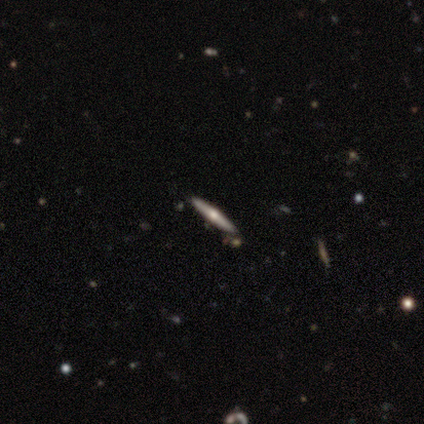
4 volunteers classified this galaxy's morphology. This is possibly a featured or disk galaxy (50%). It is clearly viewed edge-on (100%). Edge-on bulge: clearly rounded (100%). Merging: clearly none (100%).